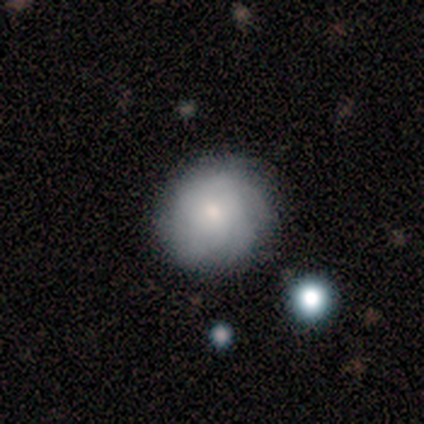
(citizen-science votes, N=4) A smooth galaxy with no disk features (100%) that is round (100%). Merging: none (75%).